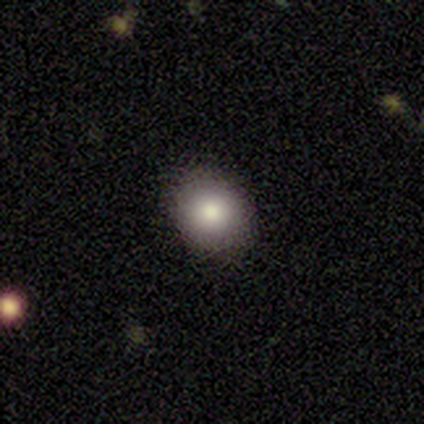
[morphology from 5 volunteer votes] smooth-or-featured: smooth: 100% | featured or disk: 0% | star or artifact: 0%
  how-rounded: in between: 60% | round: 40% | cigar-shaped: 0%
  merging: none: 100% | minor disturbance: 0% | major disturbance: 0% | merger: 0%